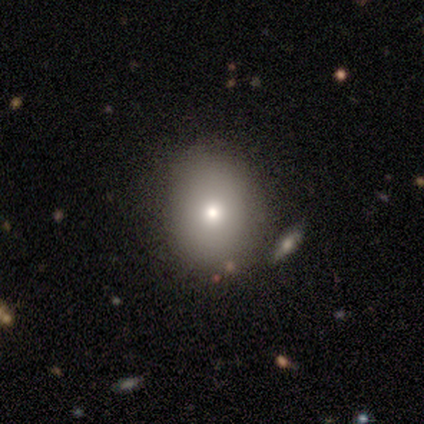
This is likely a smooth galaxy (67%). How rounded: likely round (72%). Merging: likely none (79%).